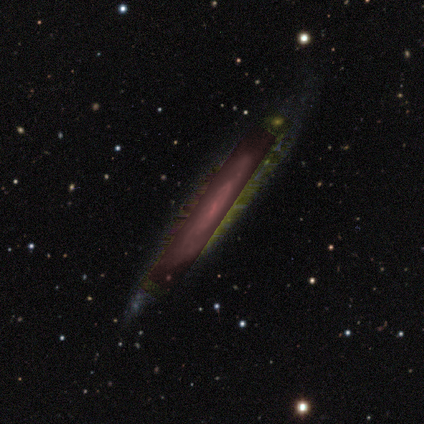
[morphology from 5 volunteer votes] This is clearly a featured or disk galaxy (80%). It is likely not viewed edge-on (75%). Bar: marginally strong (33%, tied with weak and no). Spiral arm pattern: clearly yes (100%). Spiral arm count: likely can't tell (67%). Spiral winding: likely tight (67%). Central bulge: clearly small (100%). Merging: clearly none (100%).